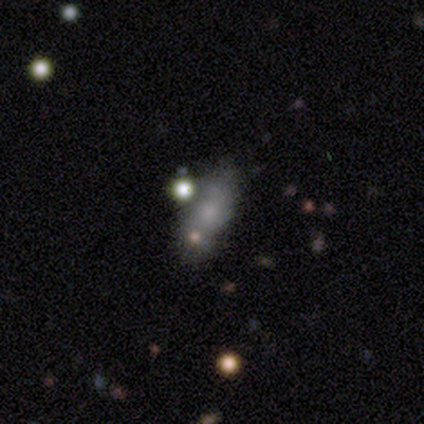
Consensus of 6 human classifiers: smooth_or_featured: smooth (p=0.83) [alt: featured or disk p=0.17]
how_rounded: in between (p=0.80) [alt: round p=0.20]
merging: none (p=0.67) [alt: merger p=0.33]